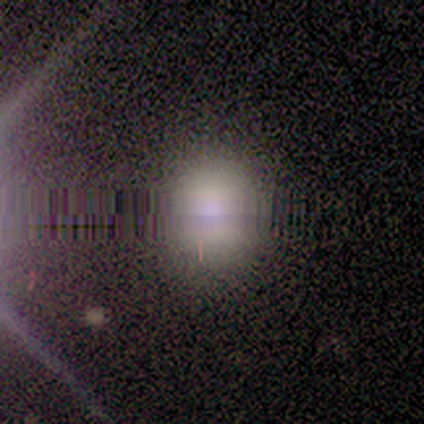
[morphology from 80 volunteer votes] Volunteers were most divided on "smooth or featured": star or artifact: 54%, smooth: 39%, featured or disk: 8%.